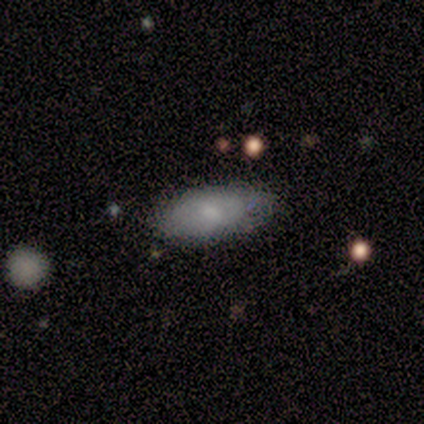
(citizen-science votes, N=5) A smooth galaxy with no disk features (40%, tied with featured or disk) that is in between round and cigar-shaped (100%).

Vote fractions:
- Smooth or featured? smooth: 40% (tied) / featured or disk: 40% (tied) / star or artifact: 20%
- How rounded? in between: 100% / round: 0% / cigar-shaped: 0%
- Merging? none: 50% (tied) / minor disturbance: 50% (tied) / major disturbance: 0% / merger: 0%